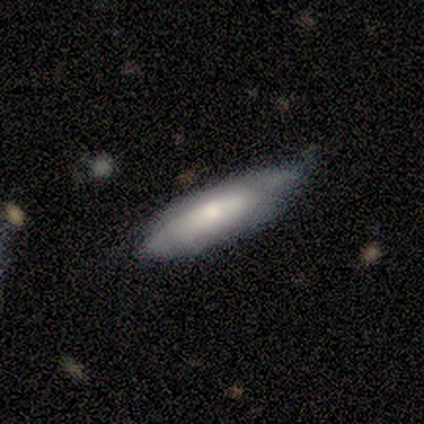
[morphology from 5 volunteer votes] smooth 100%, featured or disk 0%, star or artifact 0%. Down the decision tree: how rounded — cigar-shaped (100%); merging — none (60%).